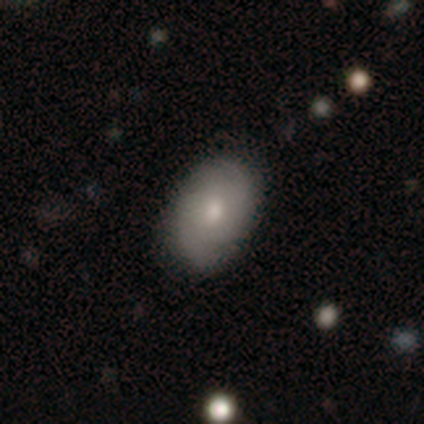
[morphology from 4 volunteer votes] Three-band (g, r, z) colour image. It shows a featured or disk galaxy (75%) with a weak bar (67%), 2 (100%) tight (50%, tied with loose) spiral arms (67%) and a small central bulge (100%). Merging: none (100%).